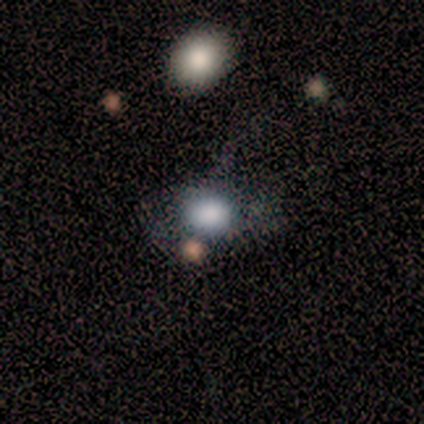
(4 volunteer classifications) Smooth or featured? 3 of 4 (75%) said smooth. How rounded? 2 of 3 (67%) said round. Merging? 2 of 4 (50%) said minor disturbance.